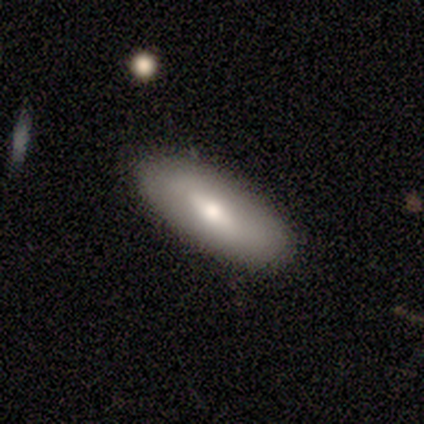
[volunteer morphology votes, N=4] Volunteers were most divided on "smooth or featured" (2-way tie): smooth: 50%, featured or disk: 50%, star or artifact: 0%. More confident: how rounded — in between (100%); merging — none (100%).